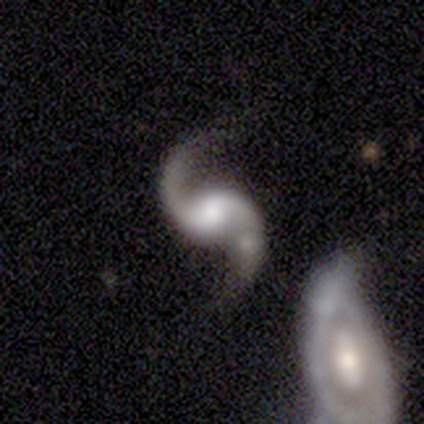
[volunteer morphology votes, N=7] This appears to be a featured or disk galaxy (100%) with no bar (43%), 2 (100%) loose (71%) spiral arms (100%) and a large central bulge (57%). Merging: none (57%).